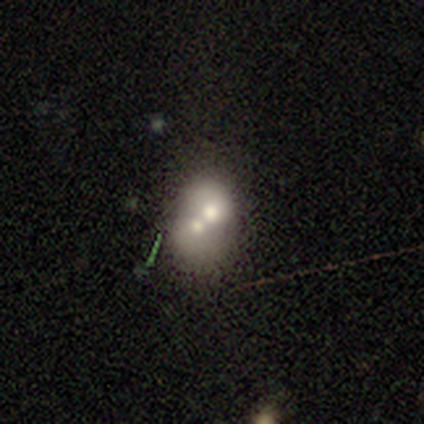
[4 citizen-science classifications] smooth 100%, featured or disk 0%, star or artifact 0%. Down the decision tree: how rounded — in between (75%); merging — merger (75%).